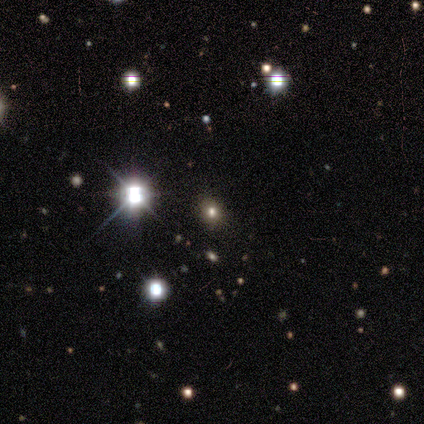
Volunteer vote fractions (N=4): smooth-or-featured: smooth: 50% (tied) | star or artifact: 50% (tied) | featured or disk: 0%
  how-rounded: round: 100% | in between: 0% | cigar-shaped: 0%
  merging: none: 100% | minor disturbance: 0% | major disturbance: 0% | merger: 0%